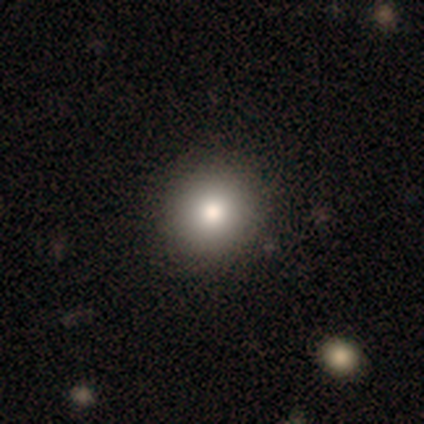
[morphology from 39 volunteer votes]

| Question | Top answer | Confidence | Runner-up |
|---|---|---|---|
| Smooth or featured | smooth | 92% | star or artifact (5%) |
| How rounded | round | 89% | in between (11%) |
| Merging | none | 81% | minor disturbance (3%) |